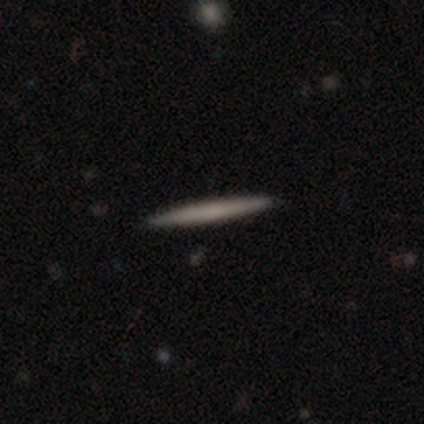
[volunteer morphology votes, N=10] Overall: featured or disk (50%; smooth 40%). Edge-on disk: yes (100%). Edge-on bulge: none (100%). Merging: none (100%).